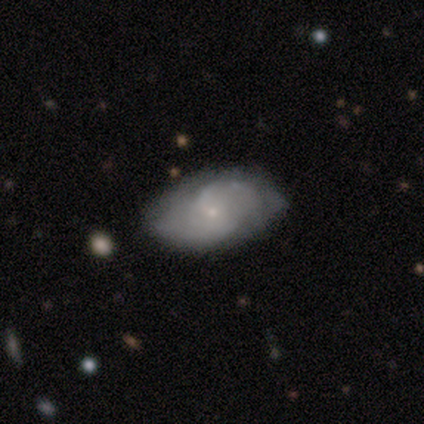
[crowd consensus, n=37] Smooth or featured? 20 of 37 (54%) said featured or disk. Edge-on disk? 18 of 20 (90%) said no. Bar? 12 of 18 (67%) said no. Spiral arms? 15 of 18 (83%) said yes. Spiral winding? 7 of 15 (47%) said medium. Spiral arm count? 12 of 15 (80%) said 2. Bulge size? 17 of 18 (94%) said small. Merging? 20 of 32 (62%) said none.